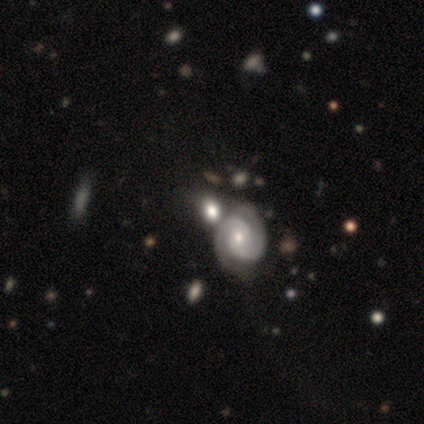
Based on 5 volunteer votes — featured or disk 80%, smooth 20%, star or artifact 0%. Down the decision tree: edge-on disk — no (100%); bar — no (50%); spiral arms — yes (100%); spiral arm count — 2 (100%); spiral winding — tight (100%); bulge size — moderate (50%, tied with small); merging — merger (60%).